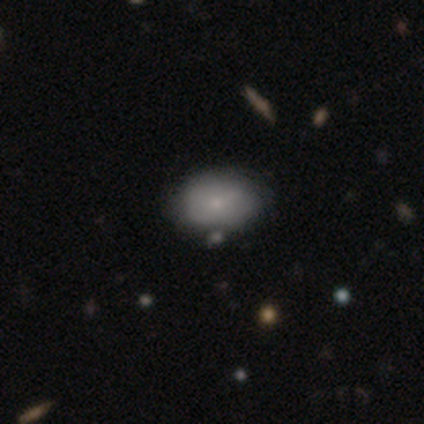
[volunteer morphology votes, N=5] Overall: smooth (80%). How rounded: in between (100%). Merging: none (80%).